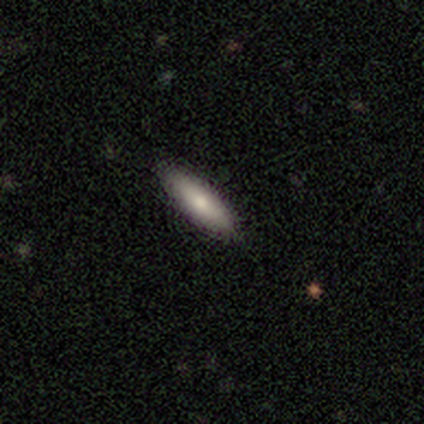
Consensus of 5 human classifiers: Q: Smooth or featured?
A: smooth (80%); runner-up: featured or disk (20%)
Q: How rounded?
A: cigar-shaped (75%); runner-up: in between (25%)
Q: Merging?
A: none (100%)